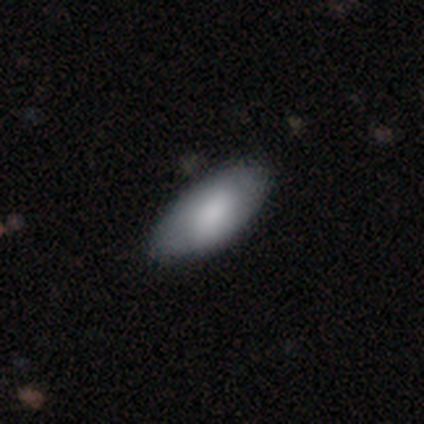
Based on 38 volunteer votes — A smooth galaxy with no disk features (71%) that is in between round and cigar-shaped (100%).

Vote fractions:
- Smooth or featured? smooth: 71% / featured or disk: 24% / star or artifact: 5%
- How rounded? in between: 100% / round: 0% / cigar-shaped: 0%
- Merging? none: 58% / minor disturbance: 6% / major disturbance: 0% / merger: 0%